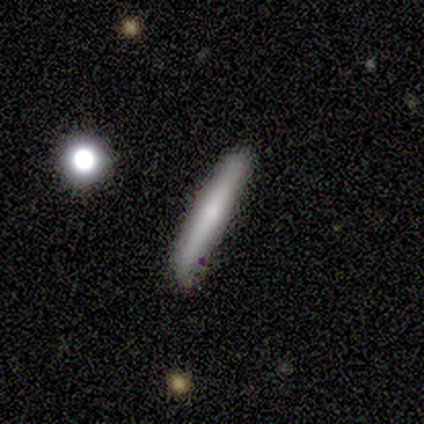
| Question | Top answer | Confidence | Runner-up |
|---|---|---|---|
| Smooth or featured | featured or disk | 60% | smooth (40%) |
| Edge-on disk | yes | 100% | — |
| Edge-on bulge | none | 67% | rounded (33%) |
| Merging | none | 100% | — |